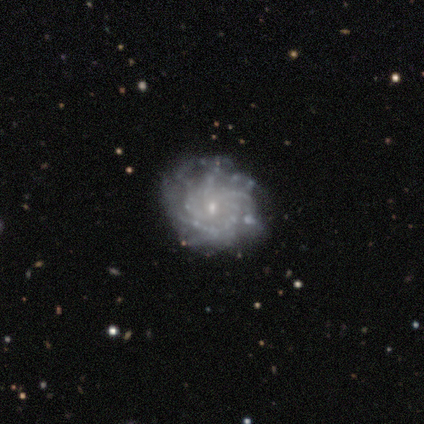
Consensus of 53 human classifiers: Q: Smooth or featured?
A: featured or disk (85%); runner-up: smooth (11%)
Q: Edge-on disk?
A: no (100%)
Q: Bar?
A: no (76%); runner-up: weak (22%)
Q: Spiral arms?
A: yes (91%); runner-up: no (9%)
Q: Spiral winding?
A: tight (63%); runner-up: medium (27%)
Q: Spiral arm count?
A: can't tell (44%); runner-up: more than 4 (37%)
Q: Bulge size?
A: small (80%); runner-up: moderate (16%)
Q: Merging?
A: none (63%); runner-up: minor disturbance (18%)